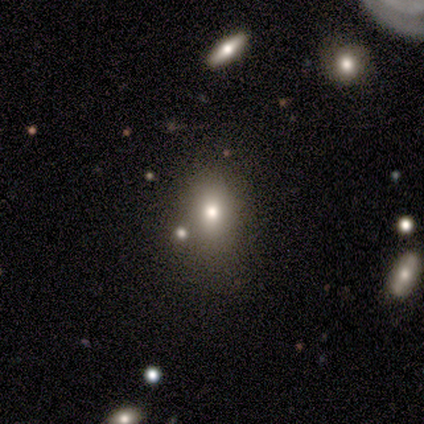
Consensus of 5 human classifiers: Overall: smooth (80%). How rounded: in between (100%). Merging: none (50%, tied with minor disturbance).